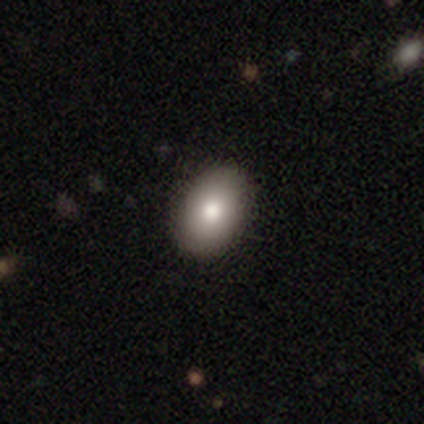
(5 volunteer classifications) smooth-or-featured: smooth: 80% | star or artifact: 20% | featured or disk: 0%
  how-rounded: in between: 75% | round: 25% | cigar-shaped: 0%
  merging: none: 75% | minor disturbance: 25% | major disturbance: 0% | merger: 0%